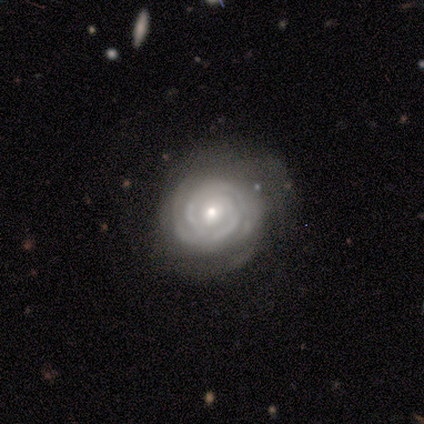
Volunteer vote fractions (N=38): This appears to be a featured or disk galaxy (82%) with no bar (70%), 2 (37%) tight (90%) spiral arms (100%) and a small central bulge (57%). Merging: none (65%).